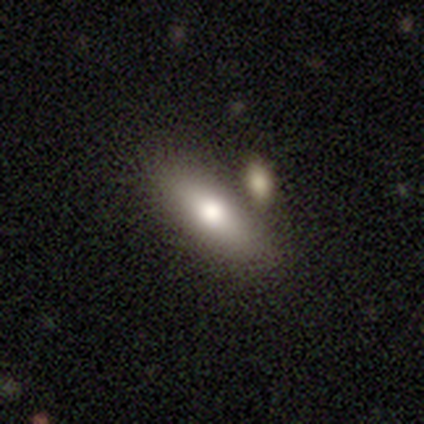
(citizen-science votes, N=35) A smooth galaxy with no disk features (74%) that is in between round and cigar-shaped (73%).

Vote fractions:
- Smooth or featured? smooth: 74% / featured or disk: 17% / star or artifact: 9%
- How rounded? in between: 73% / cigar-shaped: 23% / round: 4%
- Merging? merger: 53% / none: 0% / minor disturbance: 0% / major disturbance: 0%